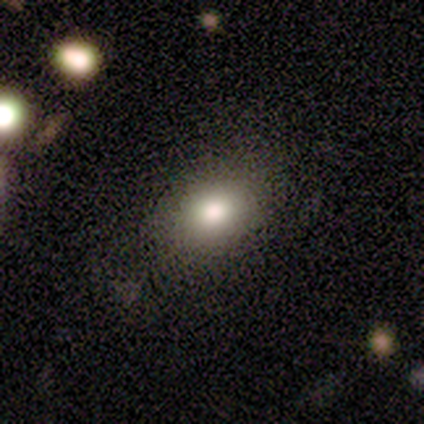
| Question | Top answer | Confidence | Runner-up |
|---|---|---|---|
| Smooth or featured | smooth | 100% | — |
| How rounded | in between | 80% | round (20%) |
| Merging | none | 100% | — |